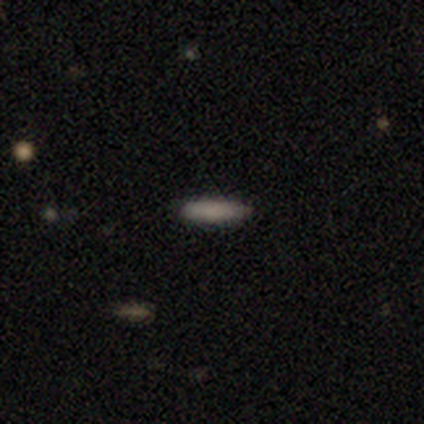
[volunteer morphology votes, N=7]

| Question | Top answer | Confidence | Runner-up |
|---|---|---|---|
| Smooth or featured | smooth | 100% | — |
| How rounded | cigar-shaped | 57% | in between (43%) |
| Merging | none | 86% | minor disturbance (14%) |